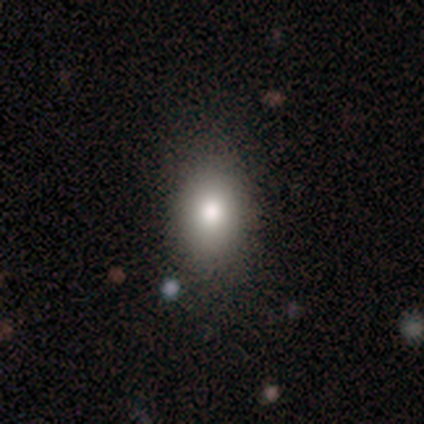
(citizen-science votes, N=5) smooth 80%, star or artifact 20%, featured or disk 0%. Down the decision tree: how rounded — round (50%, tied with in between); merging — none (75%).